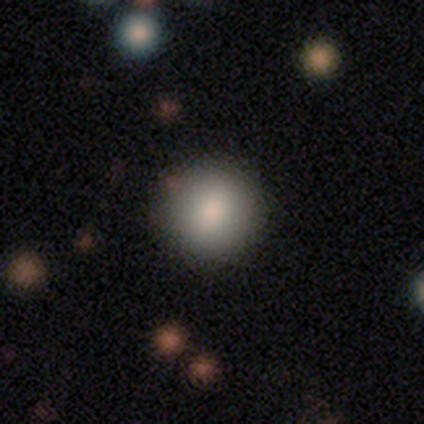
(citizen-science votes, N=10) smooth-or-featured: smooth: 90% | featured or disk: 10% | star or artifact: 0%
  how-rounded: round: 89% | in between: 11% | cigar-shaped: 0%
  merging: none: 80% | minor disturbance: 20% | major disturbance: 0% | merger: 0%